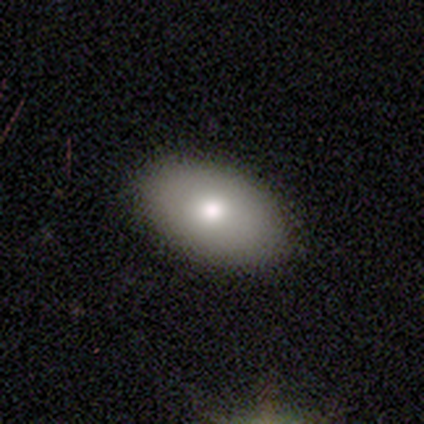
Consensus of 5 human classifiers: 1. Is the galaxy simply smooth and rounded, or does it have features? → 80% smooth, 20% featured or disk, 0% star or artifact.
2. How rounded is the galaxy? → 100% in between, 0% round, 0% cigar-shaped.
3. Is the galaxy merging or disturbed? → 100% none, 0% minor disturbance, 0% major disturbance, 0% merger.